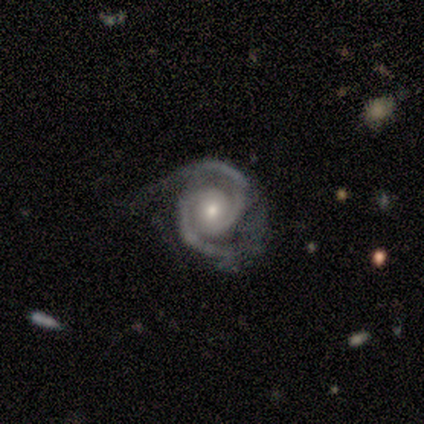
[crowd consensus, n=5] Smooth or featured? featured or disk (100%)
Edge-on disk? no (100%)
Bar? no (100%)
Spiral arms? yes (100%)
Spiral winding? medium (60%)
Spiral arm count? 2 (100%)
Bulge size? small (100%)
Merging? none (60%)